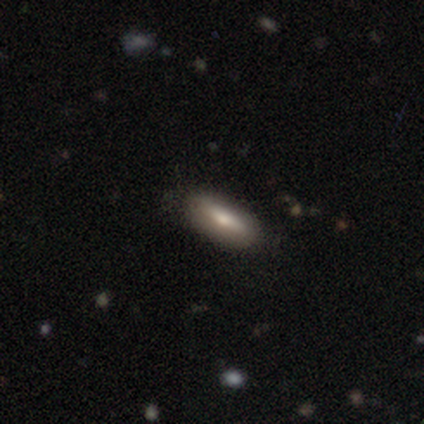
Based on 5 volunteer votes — Smooth or featured? smooth (80%)
How rounded? in between (75%)
Merging? none (100%)